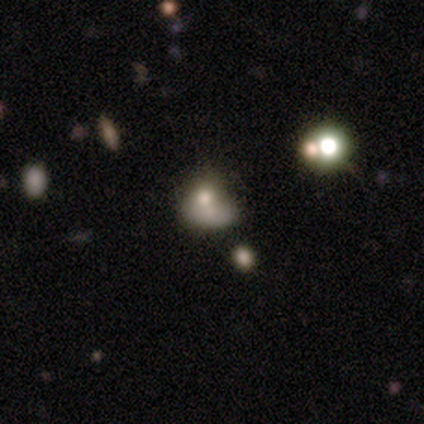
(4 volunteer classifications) Smooth or featured? smooth (75%)
How rounded? round (100%)
Merging? merger (50%)